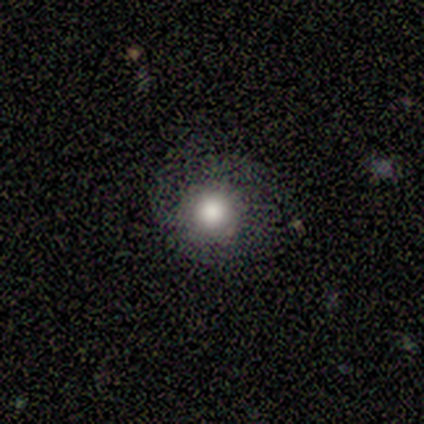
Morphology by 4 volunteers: A smooth galaxy with no disk features (100%) that is round (100%). Merging: none (75%).